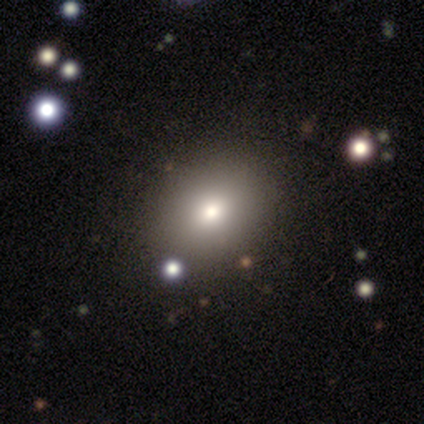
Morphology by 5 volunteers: Smooth or featured?
  - smooth: 80% *
  - star or artifact: 20%
  - featured or disk: 0%
How rounded?
  - in between: 75% *
  - round: 25%
  - cigar-shaped: 0%
Merging?
  - none: 75% *
  - minor disturbance: 25%
  - major disturbance: 0%
  - merger: 0%